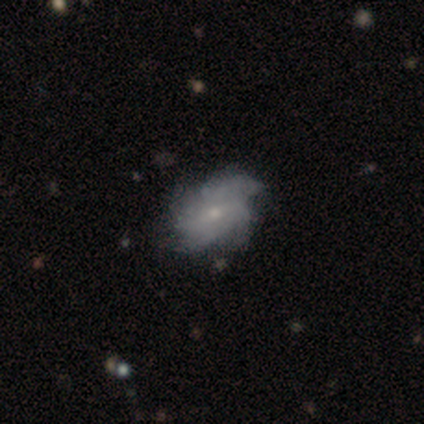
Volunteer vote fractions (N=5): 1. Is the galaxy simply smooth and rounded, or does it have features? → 60% featured or disk, 40% smooth, 0% star or artifact.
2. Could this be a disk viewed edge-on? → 100% no, 0% yes.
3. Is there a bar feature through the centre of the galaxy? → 67% no, 33% weak, 0% strong.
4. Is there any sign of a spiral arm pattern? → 67% yes, 33% no.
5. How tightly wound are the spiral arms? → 50% medium (tied), 50% loose (tied), 0% tight.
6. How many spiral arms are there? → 50% 4 (tied), 50% can't tell (tied), 0% 1, 0% 2, 0% 3, 0% more than 4.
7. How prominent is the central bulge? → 100% small, 0% dominant, 0% large, 0% moderate, 0% none.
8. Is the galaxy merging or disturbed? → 60% major disturbance, 20% none, 20% minor disturbance, 0% merger.